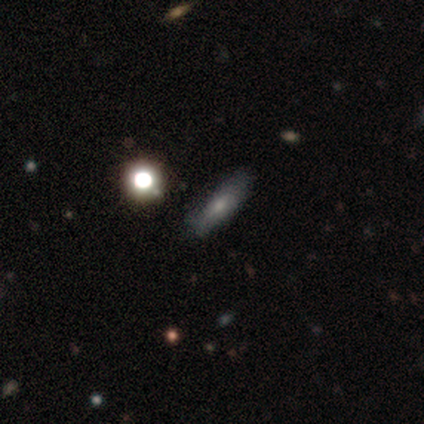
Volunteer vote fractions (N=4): Smooth or featured? 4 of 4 (100%) said smooth. How rounded? 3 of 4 (75%) said cigar-shaped. Merging? 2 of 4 (50%) said none.